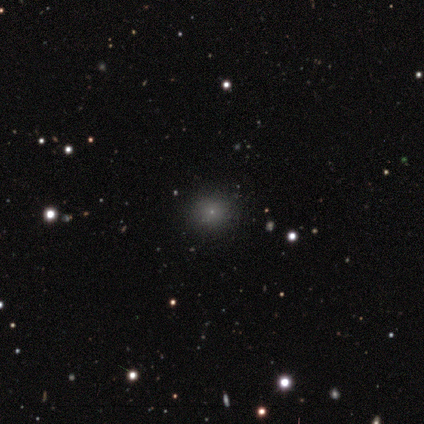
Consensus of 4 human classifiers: Overall: smooth (75%). How rounded: round (100%). Merging: none (100%).